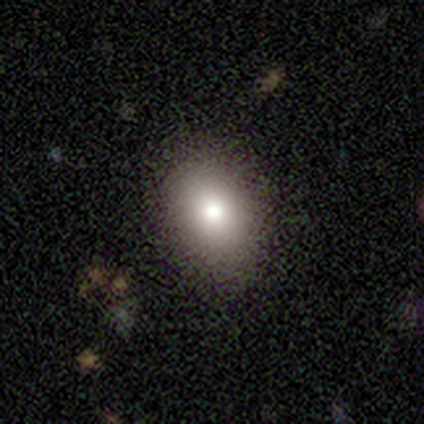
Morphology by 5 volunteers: Smooth or featured? smooth (100%)
How rounded? in between (100%)
Merging? none (100%)